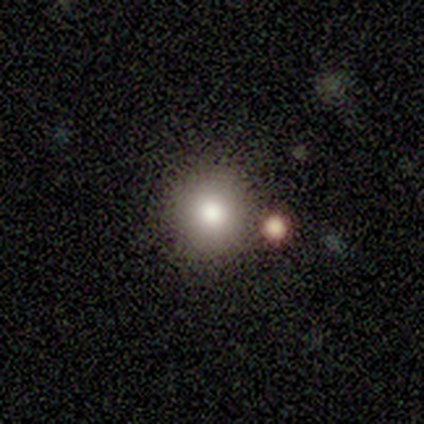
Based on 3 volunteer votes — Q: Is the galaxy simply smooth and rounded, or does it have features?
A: smooth — 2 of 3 (67%).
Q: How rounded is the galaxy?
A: round — 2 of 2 (100%).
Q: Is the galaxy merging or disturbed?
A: none — 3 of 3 (100%).